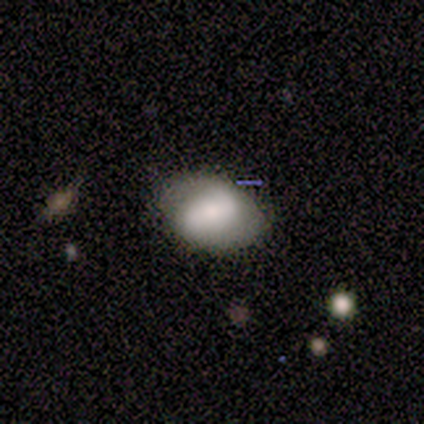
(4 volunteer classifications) Q: Smooth or featured?
A: smooth (75%); runner-up: featured or disk (25%)
Q: How rounded?
A: round (67%); runner-up: in between (33%)
Q: Merging?
A: none (50%); tied with: minor disturbance (50%)